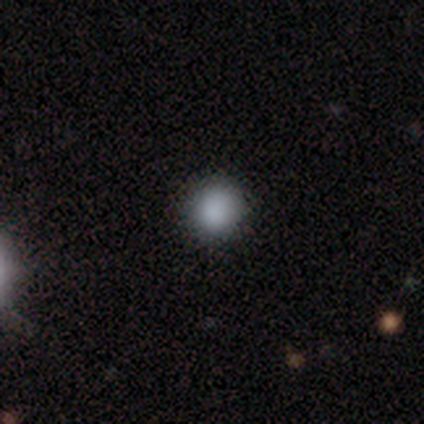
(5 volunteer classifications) smooth_or_featured: smooth (p=0.80) [alt: star or artifact p=0.20]
how_rounded: round (p=1.00)
merging: none (p=1.00)